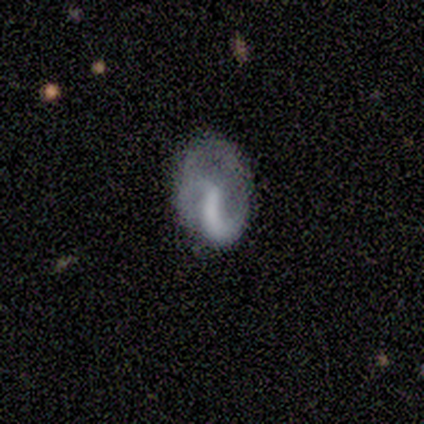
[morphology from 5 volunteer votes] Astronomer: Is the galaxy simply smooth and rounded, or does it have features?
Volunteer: featured or disk — 80%.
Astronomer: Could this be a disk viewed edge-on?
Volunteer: no — 100%.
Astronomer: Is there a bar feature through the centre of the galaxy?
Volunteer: strong — 50%, tied with no at 50%.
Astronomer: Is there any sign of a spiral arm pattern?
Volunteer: yes — 100%.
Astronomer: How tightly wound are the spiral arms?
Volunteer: tight — 50%, tied with loose at 50%.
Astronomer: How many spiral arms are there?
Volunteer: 1 — 100%.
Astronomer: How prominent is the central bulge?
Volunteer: none — 75%.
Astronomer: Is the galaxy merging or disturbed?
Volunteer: none — 80%.